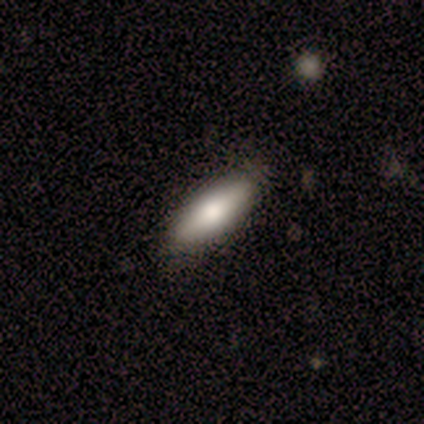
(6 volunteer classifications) smooth-or-featured: smooth: 67% | featured or disk: 33% | star or artifact: 0%
  how-rounded: in between: 75% | cigar-shaped: 25% | round: 0%
  merging: none: 67% | minor disturbance: 33% | major disturbance: 0% | merger: 0%